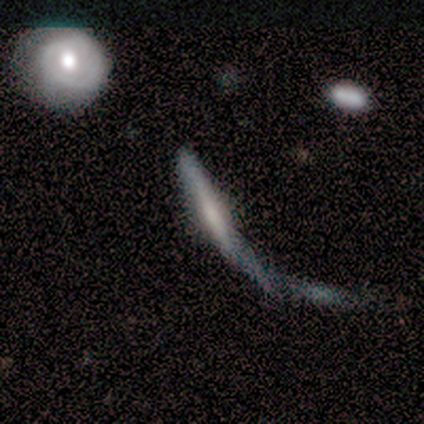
featured or disk 100%, smooth 0%, star or artifact 0%. Down the decision tree: edge-on disk — yes (100%); edge-on bulge — boxy (40%, tied with none); merging — major disturbance (60%).